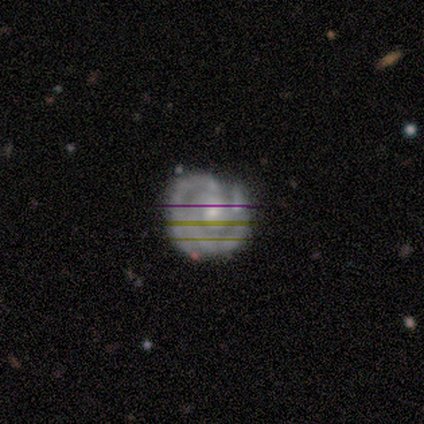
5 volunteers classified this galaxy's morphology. Volunteers were most divided on "spiral arm count" (2-way tie): 2: 40%, 3: 40%, can't tell: 20%, 1: 0%, 4: 0%, more than 4: 0%. More confident: smooth or featured — featured or disk (100%); edge-on disk — no (100%); spiral arms — yes (100%); merging — none (100%); spiral winding — tight (80%); bulge size — small (80%); bar — no (60%).